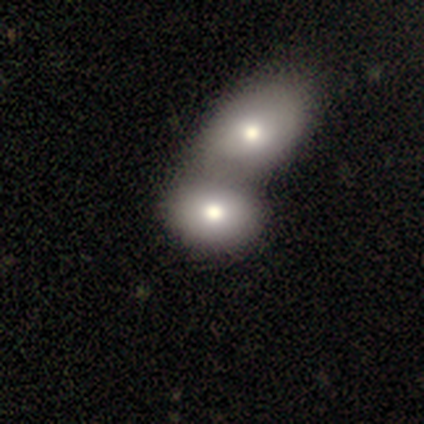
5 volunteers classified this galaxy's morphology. smooth-or-featured: smooth: 60% | featured or disk: 40% | star or artifact: 0%
  how-rounded: in between: 67% | round: 33% | cigar-shaped: 0%
  merging: merger: 100% | none: 0% | minor disturbance: 0% | major disturbance: 0%